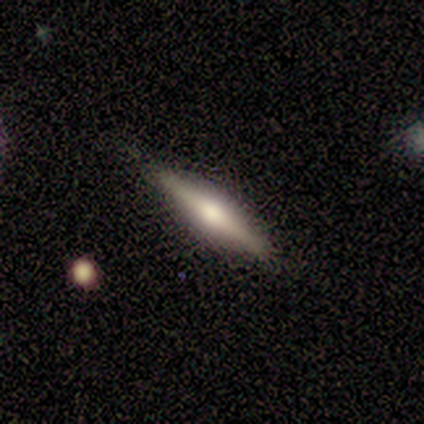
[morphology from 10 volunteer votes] Smooth or featured: featured or disk — 60% (smooth — 40%)
Edge-on disk: yes — 100%
Edge-on bulge: rounded — 67% (boxy — 17%)
Merging: none — 90% (major disturbance — 10%)